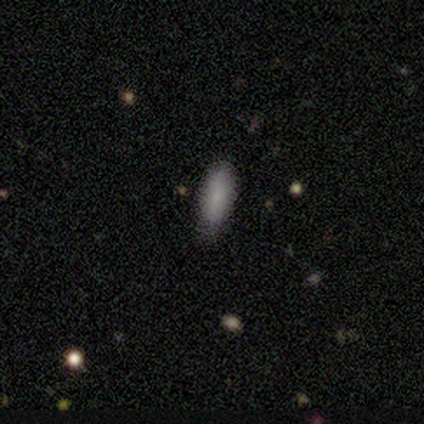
smooth 100%, featured or disk 0%, star or artifact 0%. Down the decision tree: how rounded — in between (50%, tied with cigar-shaped); merging — none (75%).